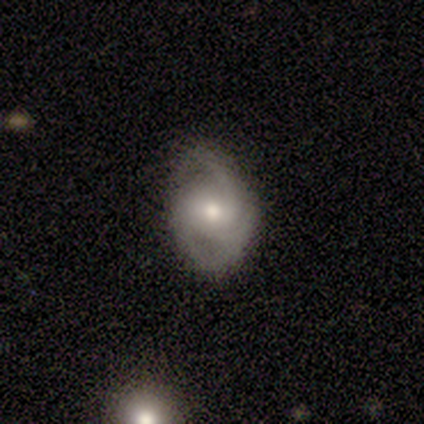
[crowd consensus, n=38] Smooth or featured?
  - featured or disk: 82% *
  - smooth: 13%
  - star or artifact: 5%
Edge-on disk?
  - no: 94% *
  - yes: 6%
Bar?
  - no: 66% *
  - weak: 31%
  - strong: 3%
Spiral arms?
  - yes: 93% *
  - no: 7%
Spiral winding?
  - medium: 37% *
  - tight: 33%
  - loose: 30%
Spiral arm count?
  - 2: 56% *
  - 3: 26%
  - can't tell: 15%
  - 4: 4%
  - 1: 0%
  - more than 4: 0%
Bulge size?
  - moderate: 52% *
  - small: 41%
  - large: 3%
  - none: 3%
  - dominant: 0%
Merging?
  - none: 75% *
  - minor disturbance: 17%
  - major disturbance: 6%
  - merger: 3%